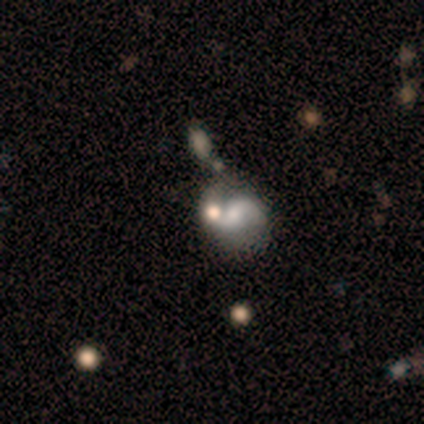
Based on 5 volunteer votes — A featured or disk galaxy (80%) with a weak bar (75%), 2 (100%) medium (67%) spiral arms (75%) and a small central bulge (75%). Merging: none (60%).